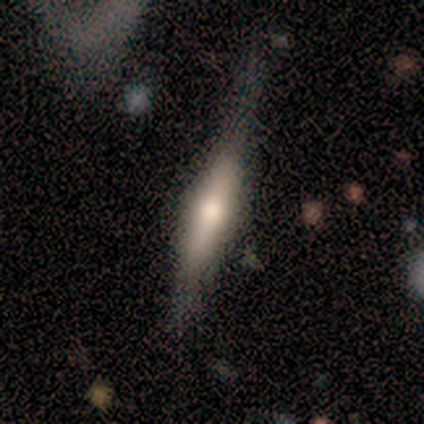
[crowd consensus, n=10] Overall: smooth (50%, tied with featured or disk). How rounded: cigar-shaped (80%). Merging: none (60%; major disturbance 20%).